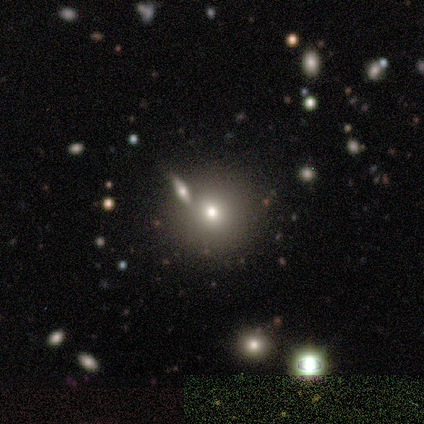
Morphology: type=smooth (40%, tied with star or artifact); roundness=round (100%); merging=none (67%).